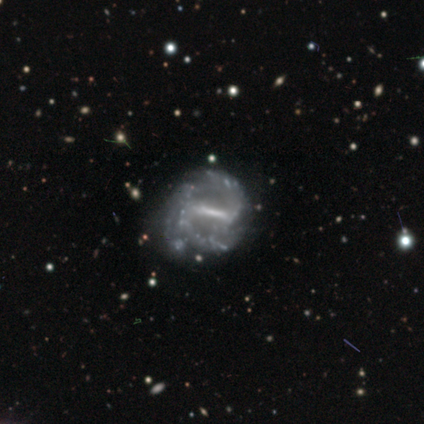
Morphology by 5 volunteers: Volunteers were most divided on "bar" (2-way tie): strong: 40%, weak: 40%, no: 20%. More confident: smooth or featured — featured or disk (100%); edge-on disk — no (100%); bulge size — none (80%); spiral winding — tight (67%); spiral arm count — 3 (67%); spiral arms — yes (60%); merging — none (60%).